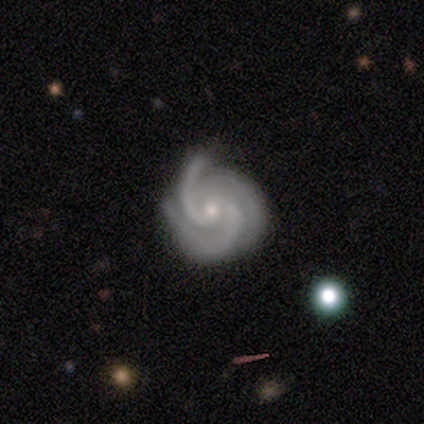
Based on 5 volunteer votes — A featured or disk galaxy (100%) with no bar (80%), 3 (80%) tight (60%) spiral arms (100%) and a small central bulge (100%).

Vote fractions:
- Smooth or featured? featured or disk: 100% / smooth: 0% / star or artifact: 0%
- Edge-on disk? no: 100% / yes: 0%
- Bar? no: 80% / weak: 20% / strong: 0%
- Spiral arms? yes: 100% / no: 0%
- Spiral winding? tight: 60% / medium: 40% / loose: 0%
- Spiral arm count? 3: 80% / 2: 20% / 1: 0% / 4: 0% / more than 4: 0% / can't tell: 0%
- Bulge size? small: 100% / dominant: 0% / large: 0% / moderate: 0% / none: 0%
- Merging? none: 60% / minor disturbance: 20% / major disturbance: 20% / merger: 0%